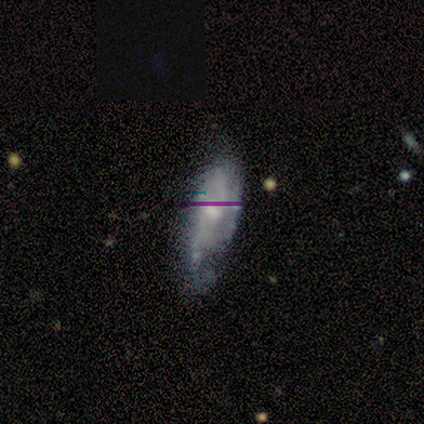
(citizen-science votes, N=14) Overall: featured or disk (79%). Edge-on disk: no (100%). Bar: no (64%; weak 36%). Spiral arms: yes (64%; no 36%). Spiral arm count: 2 (86%). Spiral winding: tight (43%, tied with medium). Bulge size: small (55%; moderate 36%). Merging: minor disturbance (45%; none 27%).